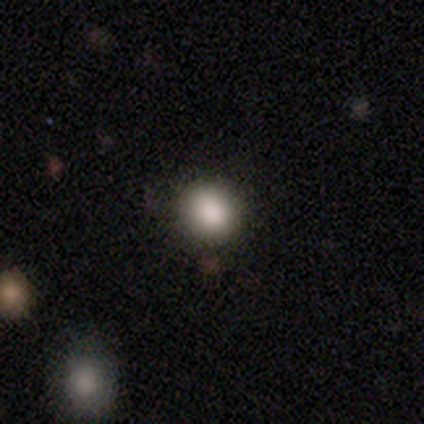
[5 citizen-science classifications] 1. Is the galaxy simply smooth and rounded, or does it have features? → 80% smooth, 20% star or artifact, 0% featured or disk.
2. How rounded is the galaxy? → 75% round, 25% in between, 0% cigar-shaped.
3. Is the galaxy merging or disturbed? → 100% none, 0% minor disturbance, 0% major disturbance, 0% merger.